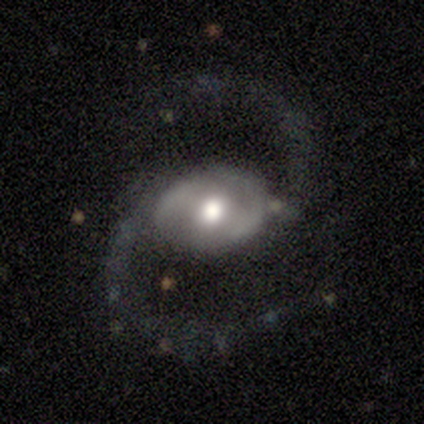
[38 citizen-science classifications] Overall: featured or disk (92%). Edge-on disk: no (97%). Bar: no (50%; weak 35%). Spiral arms: yes (97%). Spiral arm count: 2 (97%). Spiral winding: loose (70%). Bulge size: moderate (71%). Merging: none (64%).